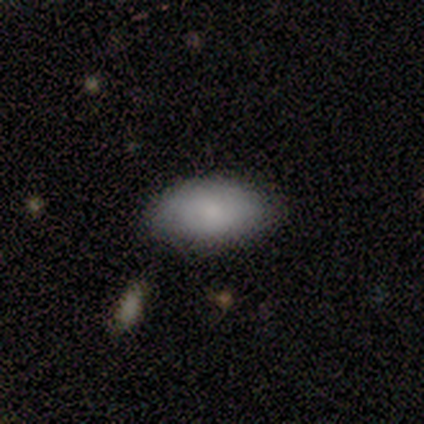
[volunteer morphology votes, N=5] A smooth galaxy with no disk features (80%) that is in between round and cigar-shaped (100%). Merging: none (100%).